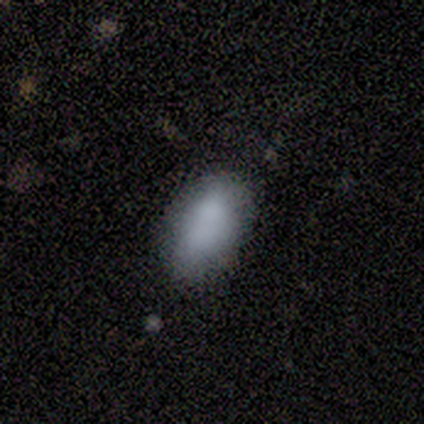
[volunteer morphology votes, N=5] smooth-or-featured: smooth: 100% | featured or disk: 0% | star or artifact: 0%
  how-rounded: in between: 100% | round: 0% | cigar-shaped: 0%
  merging: none: 80% | minor disturbance: 20% | major disturbance: 0% | merger: 0%